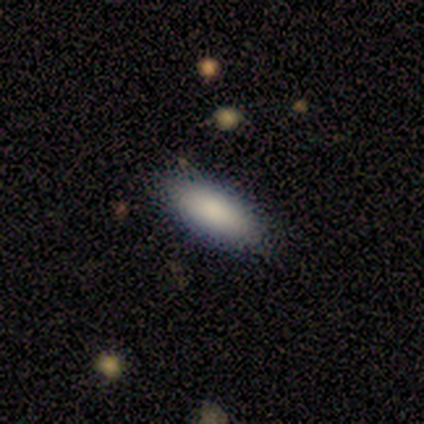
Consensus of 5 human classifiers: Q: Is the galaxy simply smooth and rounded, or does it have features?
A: smooth — 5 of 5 (100%).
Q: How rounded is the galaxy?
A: in between — 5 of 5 (100%).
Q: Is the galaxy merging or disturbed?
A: none — 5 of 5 (100%).